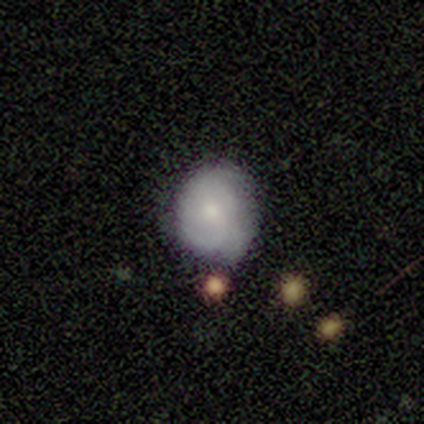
This is marginally a featured or disk galaxy (40%, tied with star or artifact). It is clearly not viewed edge-on (100%). Bar: clearly no (100%). Spiral arm pattern: clearly yes (100%). Spiral arm count: possibly 2 (50%, tied with 3). Spiral winding: possibly tight (50%, tied with medium). Central bulge: clearly small (100%). Merging: clearly minor disturbance (100%).